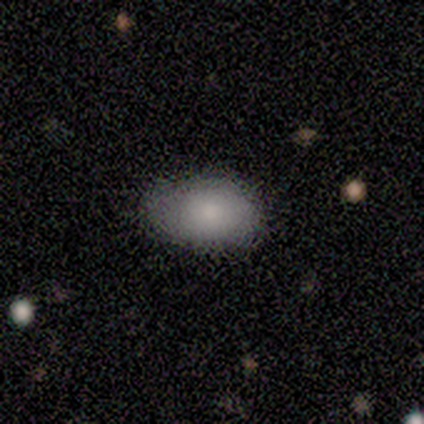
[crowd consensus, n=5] Smooth or featured? smooth (80%)
How rounded? in between (75%)
Merging? none (60%)